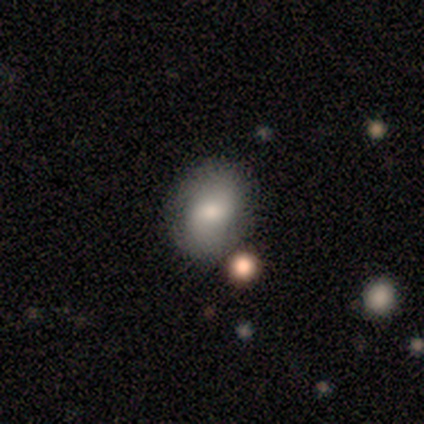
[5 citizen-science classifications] Smooth or featured? smooth (80%)
How rounded? in between (100%)
Merging? none (100%)